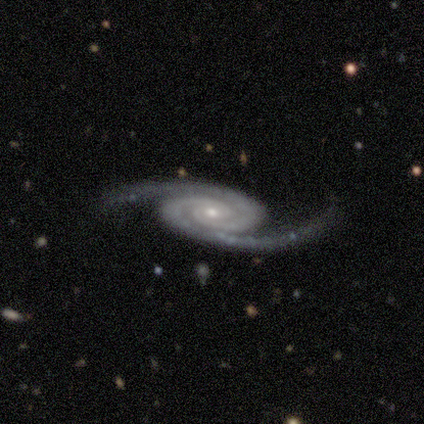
Overall: featured or disk (90%). Edge-on disk: no (100%). Bar: no (100%). Spiral arms: yes (100%). Spiral arm count: 2 (100%). Spiral winding: tight (56%; medium 44%). Bulge size: moderate (44%, tied with small). Merging: none (89%).